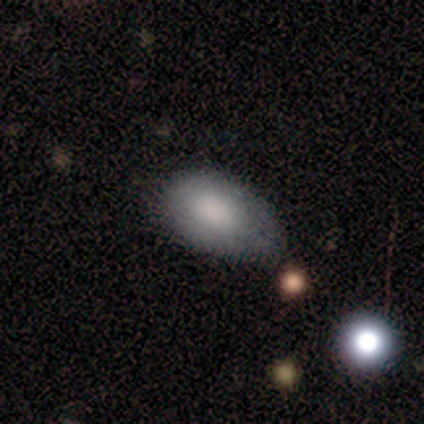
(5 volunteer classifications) smooth-or-featured: smooth: 100% | featured or disk: 0% | star or artifact: 0%
  how-rounded: in between: 100% | round: 0% | cigar-shaped: 0%
  merging: minor disturbance: 40% | none: 20% | major disturbance: 20% | merger: 20%